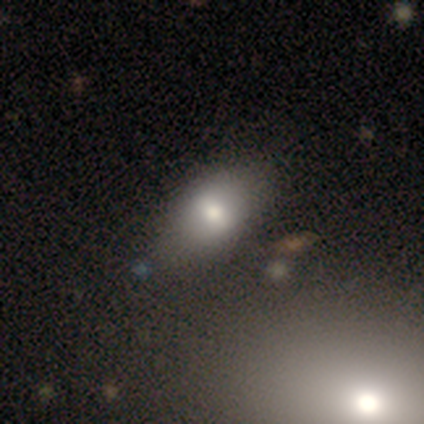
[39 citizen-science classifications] Morphology: type=smooth (69%); roundness=in between (96%); merging=none (80%).